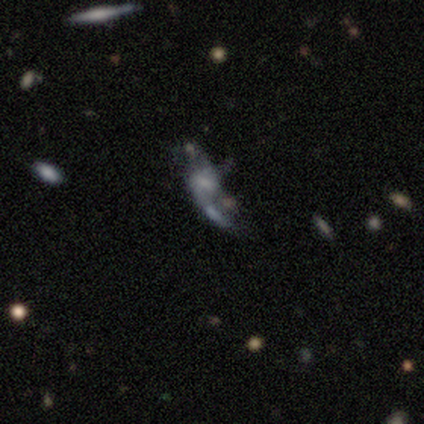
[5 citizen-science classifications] smooth-or-featured: featured or disk: 60% | smooth: 20% | star or artifact: 20%
  disk-edge-on: no: 100% | yes: 0%
    bar: no: 67% | weak: 33% | strong: 0%
    has-spiral-arms: yes: 67% | no: 33%
      spiral-winding: medium: 50% (tied) | loose: 50% (tied) | tight: 0%
      spiral-arm-count: 1: 50% (tied) | 2: 50% (tied) | 3: 0% | 4: 0% | more than 4: 0% | can't tell: 0%
    bulge-size: small: 67% | none: 33% | dominant: 0% | large: 0% | moderate: 0%
  merging: merger: 50% | minor disturbance: 25% | major disturbance: 25% | none: 0%